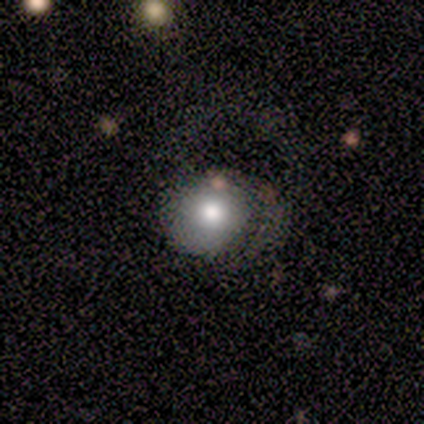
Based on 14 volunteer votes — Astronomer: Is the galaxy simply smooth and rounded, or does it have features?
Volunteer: smooth — 86%.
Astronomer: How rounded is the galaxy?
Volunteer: round — 92%.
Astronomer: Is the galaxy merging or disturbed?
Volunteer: none — 38%, tied with minor disturbance at 38%.